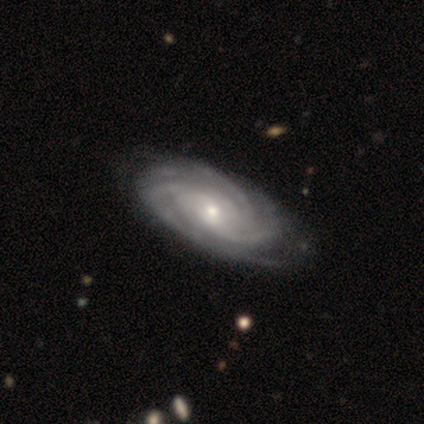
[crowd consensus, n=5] Volunteers were most divided on "spiral winding" (2-way tie): tight: 40%, medium: 40%, loose: 20%; "spiral arm count" (2-way tie): 3: 40%, more than 4: 40%, can't tell: 20%, 1: 0%, 2: 0%, 4: 0%. More confident: smooth or featured — featured or disk (100%); edge-on disk — no (100%); bar — no (100%); spiral arms — yes (100%); merging — none (80%); bulge size — small (60%).